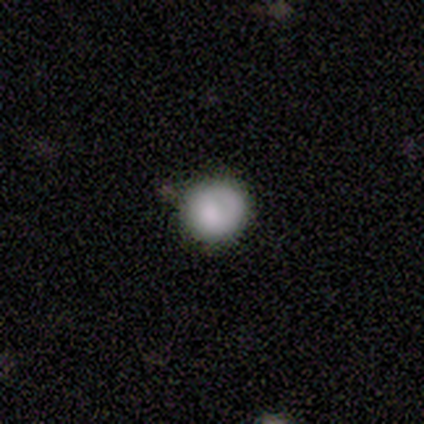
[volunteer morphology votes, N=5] Q: Smooth or featured?
A: smooth (100%)
Q: How rounded?
A: round (100%)
Q: Merging?
A: none (100%)